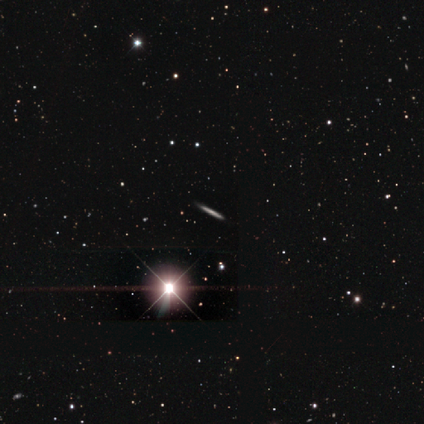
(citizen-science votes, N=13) smooth-or-featured: smooth: 38% | featured or disk: 31% | star or artifact: 31%
  how-rounded: cigar-shaped: 100% | round: 0% | in between: 0%
  merging: none: 100% | minor disturbance: 0% | major disturbance: 0% | merger: 0%